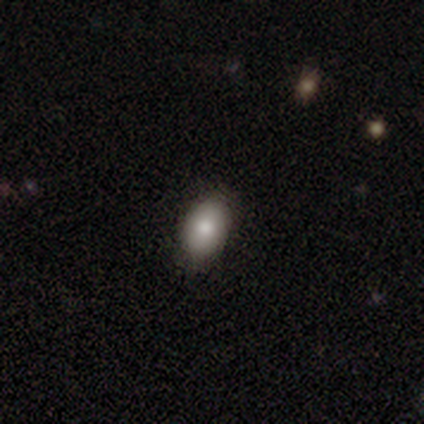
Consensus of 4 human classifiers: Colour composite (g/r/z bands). It shows a smooth galaxy with no disk features (75%) that is in between round and cigar-shaped (67%). Merging: none (100%).